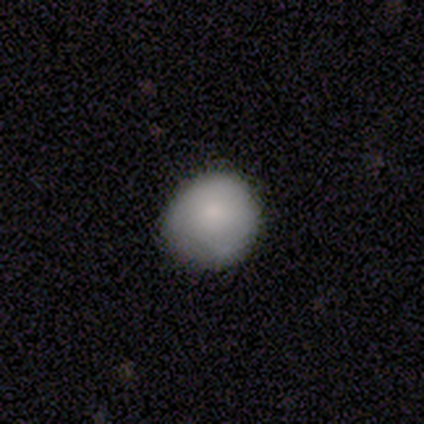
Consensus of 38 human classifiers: smooth-or-featured: smooth: 92% | featured or disk: 5% | star or artifact: 3%
  how-rounded: round: 89% | in between: 11% | cigar-shaped: 0%
  merging: none: 78% | minor disturbance: 16% | major disturbance: 5% | merger: 0%